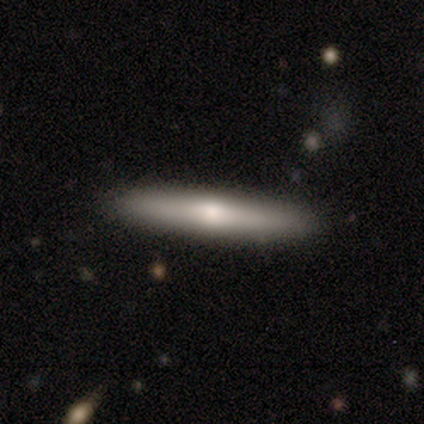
Smooth or featured? 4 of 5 (80%) said smooth. How rounded? 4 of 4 (100%) said cigar-shaped. Merging? 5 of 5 (100%) said none.